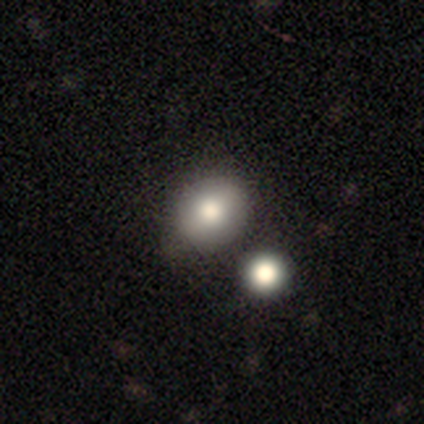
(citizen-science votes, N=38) Q: Smooth or featured?
A: smooth (58%); runner-up: featured or disk (21%)
Q: How rounded?
A: round (73%); runner-up: in between (27%)
Q: Merging?
A: merger (53%)